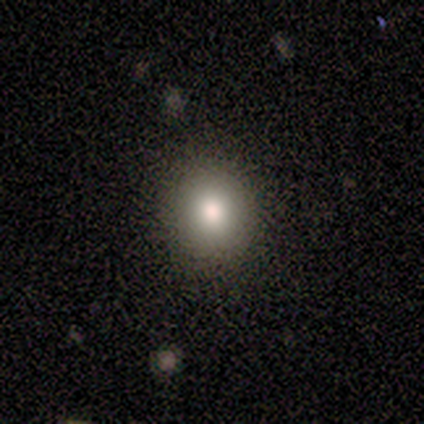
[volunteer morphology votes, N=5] Smooth or featured: smooth — 100%
How rounded: round — 100%
Merging: none — 100%